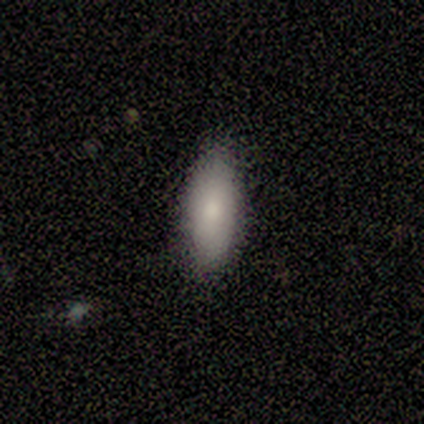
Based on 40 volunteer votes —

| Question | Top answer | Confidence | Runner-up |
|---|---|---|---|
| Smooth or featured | smooth | 78% | featured or disk (12%) |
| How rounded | in between | 74% | cigar-shaped (26%) |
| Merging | none | 78% | minor disturbance (19%) |